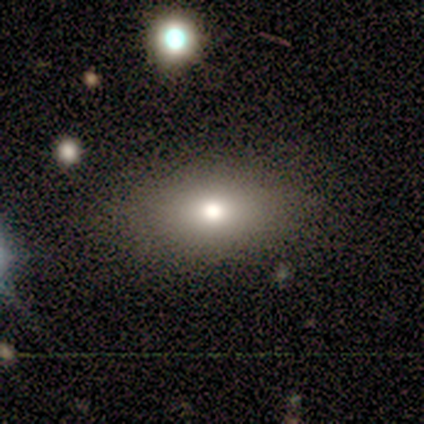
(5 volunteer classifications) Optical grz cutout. It shows a smooth galaxy with no disk features (100%) that is in between round and cigar-shaped (80%). Merging: none (60%).